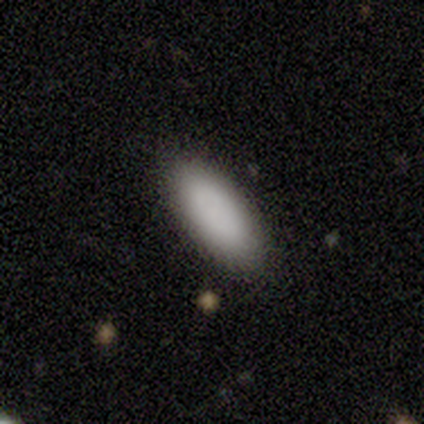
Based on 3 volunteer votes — Smooth or featured? smooth (100%)
How rounded? in between (67%)
Merging? none (67%)